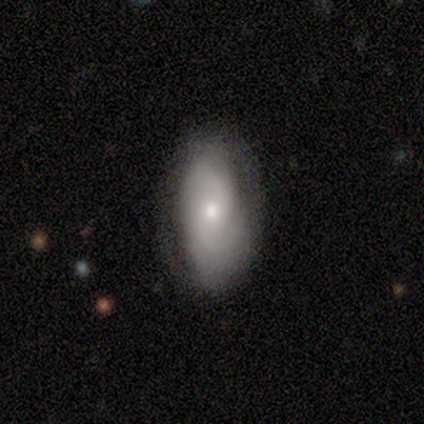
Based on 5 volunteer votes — Morphology: type=featured or disk (80%); edge-on=no (100%); bar=weak (50%, tied with no); spiral arms=yes (100%); winding=medium (50%); arm count=2 (50%); bulge=moderate (50%, tied with small); merging=none (80%).